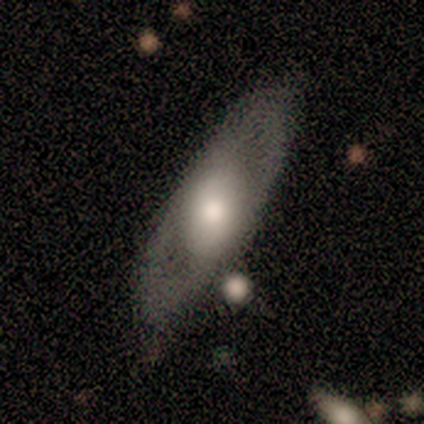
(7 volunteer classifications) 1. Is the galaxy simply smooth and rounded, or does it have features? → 57% featured or disk, 43% smooth, 0% star or artifact.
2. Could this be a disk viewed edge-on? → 50% yes (tied), 50% no (tied).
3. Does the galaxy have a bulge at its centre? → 50% boxy (tied), 50% rounded (tied), 0% none.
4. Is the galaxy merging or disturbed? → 71% none, 14% minor disturbance, 14% major disturbance, 0% merger.